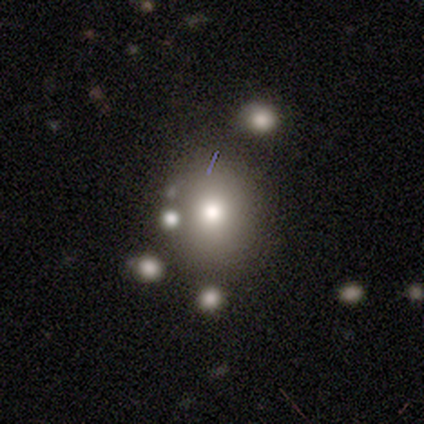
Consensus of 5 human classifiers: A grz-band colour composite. It shows a smooth galaxy with no disk features (40%, tied with star or artifact) that is round (100%). Merging: none (33%, tied with major disturbance and merger).